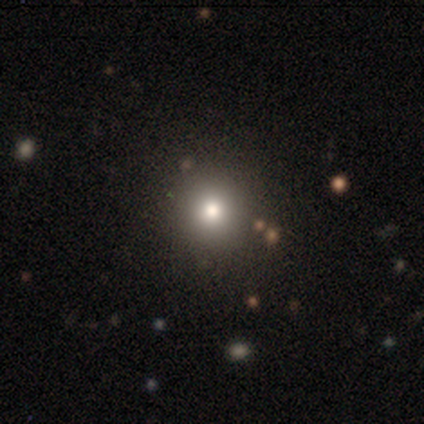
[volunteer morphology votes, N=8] smooth 62%, star or artifact 25%, featured or disk 12%. Down the decision tree: how rounded — round (100%); merging — none (100%).